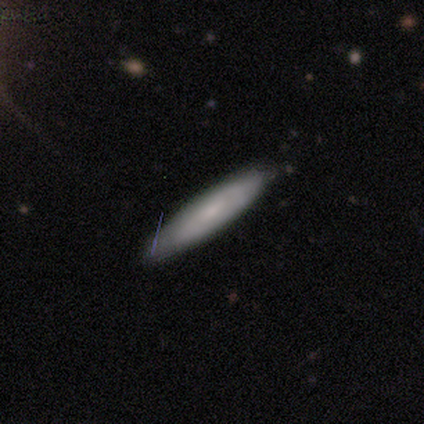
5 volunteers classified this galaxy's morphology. Volunteers were most divided on "smooth or featured": smooth: 60%, featured or disk: 40%, star or artifact: 0%. More confident: how rounded — cigar-shaped (100%); merging — none (80%).